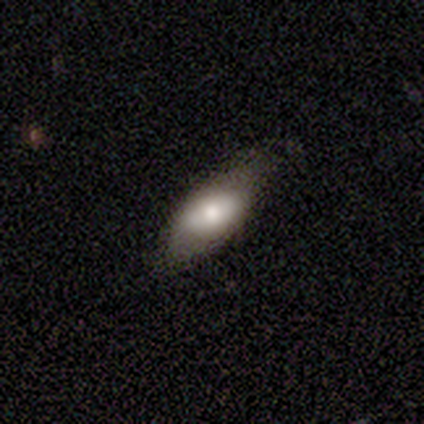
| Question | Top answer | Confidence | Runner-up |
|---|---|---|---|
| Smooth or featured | smooth | 60% | featured or disk (20%) |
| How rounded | in between | 100% | — |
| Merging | minor disturbance | 100% | — |